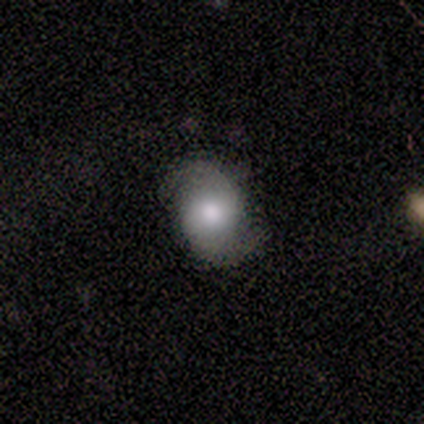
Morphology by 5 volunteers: smooth_or_featured: featured or disk (p=0.60) [alt: smooth p=0.40]
disk_edge_on: no (p=1.00)
bar: no (p=1.00)
has_spiral_arms: yes (p=1.00)
spiral_winding: medium (p=0.67) [alt: tight p=0.33]
spiral_arm_count: 2 (p=1.00)
bulge_size: large (p=0.33) [tied with: moderate p=0.33, small p=0.33]
merging: none (p=0.80) [alt: minor disturbance p=0.20]